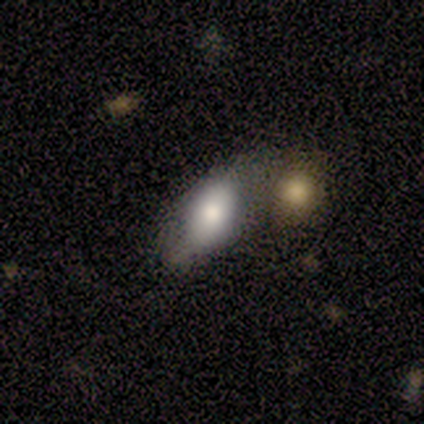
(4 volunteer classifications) Smooth or featured? 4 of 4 (100%) said smooth. How rounded? 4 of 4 (100%) said in between. Merging? 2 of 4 (50%) said none.